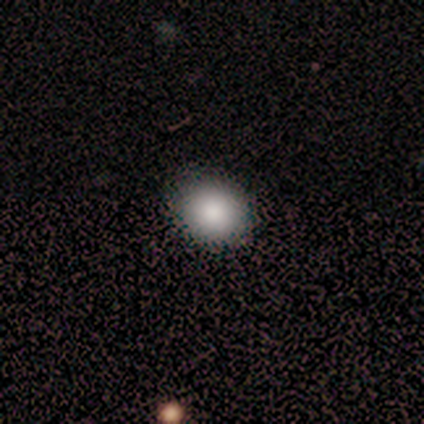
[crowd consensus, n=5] Smooth or featured? 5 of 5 (100%) said smooth. How rounded? 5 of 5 (100%) said round. Merging? 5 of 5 (100%) said none.